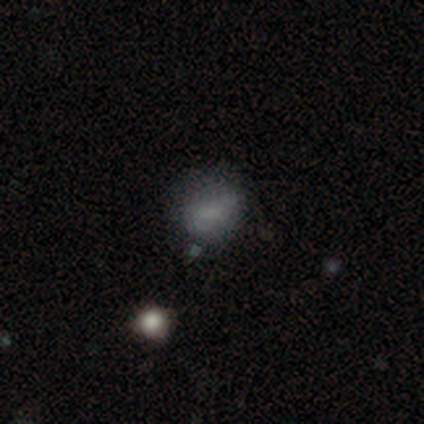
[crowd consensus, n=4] Smooth or featured: smooth — 75% (star or artifact — 25%)
How rounded: round — 100%
Merging: none — 100%